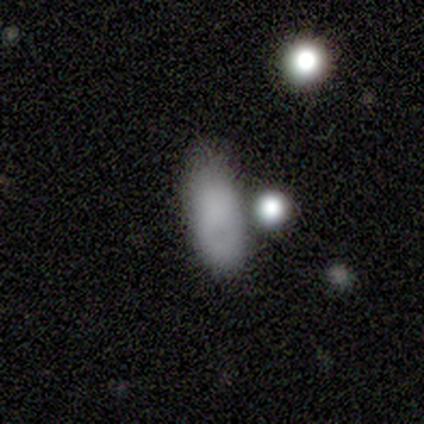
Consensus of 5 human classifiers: smooth_or_featured: smooth (p=0.80) [alt: star or artifact p=0.20]
how_rounded: in between (p=1.00)
merging: none (p=0.75) [alt: minor disturbance p=0.25]